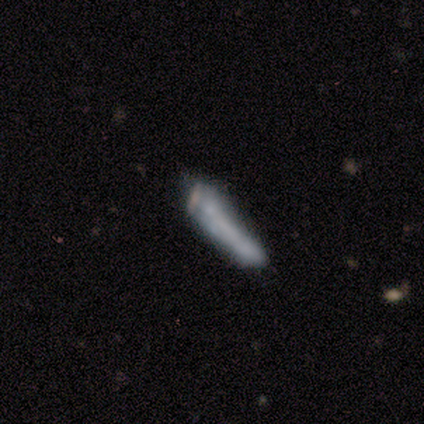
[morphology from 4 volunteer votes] Smooth or featured? 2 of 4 (50%) said featured or disk. Edge-on disk? 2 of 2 (100%) said no. Bar? 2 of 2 (100%) said no. Spiral arms? 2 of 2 (100%) said no. Bulge size? 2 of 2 (100%) said none. Merging? 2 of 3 (67%) said major disturbance.